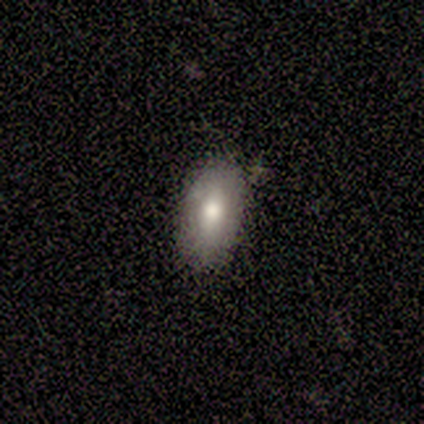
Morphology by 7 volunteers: smooth-or-featured: smooth: 86% | star or artifact: 14% | featured or disk: 0%
  how-rounded: in between: 83% | round: 17% | cigar-shaped: 0%
  merging: none: 67% | minor disturbance: 17% | merger: 17% | major disturbance: 0%